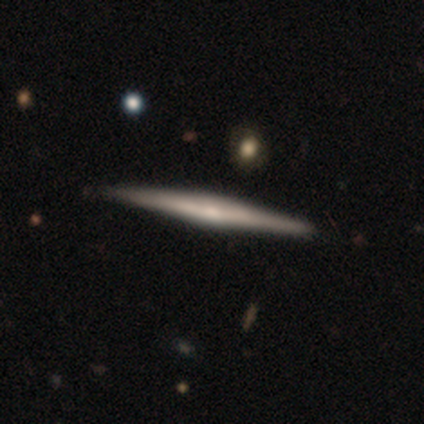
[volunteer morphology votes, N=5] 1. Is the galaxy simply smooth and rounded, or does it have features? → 80% featured or disk, 20% smooth, 0% star or artifact.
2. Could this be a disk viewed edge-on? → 100% yes, 0% no.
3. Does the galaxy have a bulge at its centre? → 50% boxy (tied), 50% rounded (tied), 0% none.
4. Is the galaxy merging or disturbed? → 100% none, 0% minor disturbance, 0% major disturbance, 0% merger.